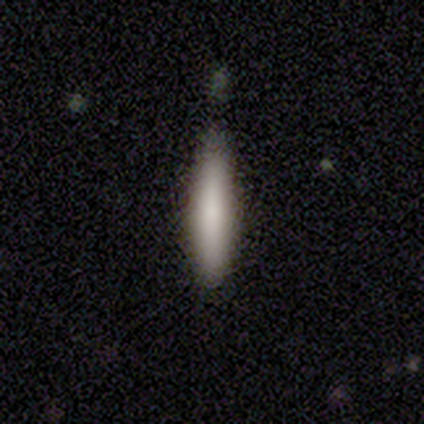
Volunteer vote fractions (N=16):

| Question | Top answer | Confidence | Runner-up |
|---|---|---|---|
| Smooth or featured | smooth | 75% | featured or disk (19%) |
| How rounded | cigar-shaped | 83% | in between (17%) |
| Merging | none | 87% | minor disturbance (13%) |